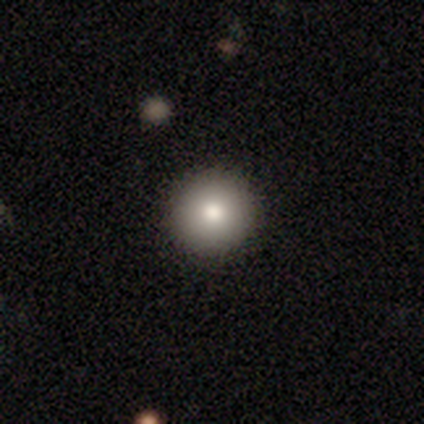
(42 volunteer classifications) Smooth or featured? smooth (90%)
How rounded? round (100%)
Merging? none (98%)